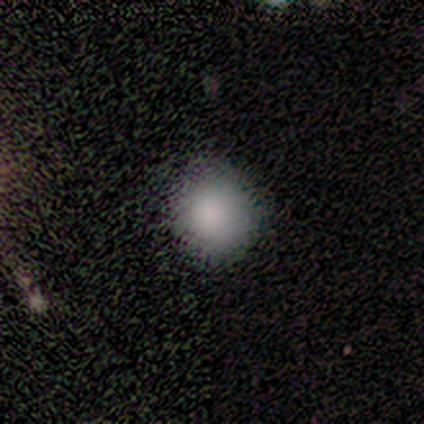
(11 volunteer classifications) Morphology: type=smooth (100%); roundness=round (91%); merging=none (91%).